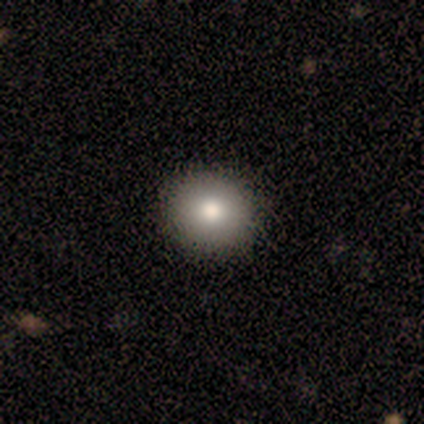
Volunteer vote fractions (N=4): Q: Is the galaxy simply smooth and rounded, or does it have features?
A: smooth — 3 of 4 (75%).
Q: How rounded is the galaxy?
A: round — 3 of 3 (100%).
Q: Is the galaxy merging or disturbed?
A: none — 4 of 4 (100%).